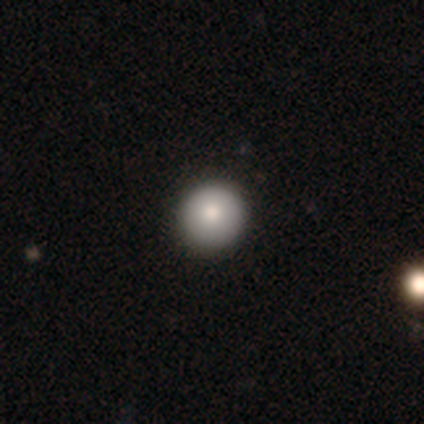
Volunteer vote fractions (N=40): smooth_or_featured: smooth (p=0.82) [alt: featured or disk p=0.15]
how_rounded: round (p=0.97) [alt: cigar-shaped p=0.03]
merging: none (p=0.59) [alt: major disturbance p=0.05]